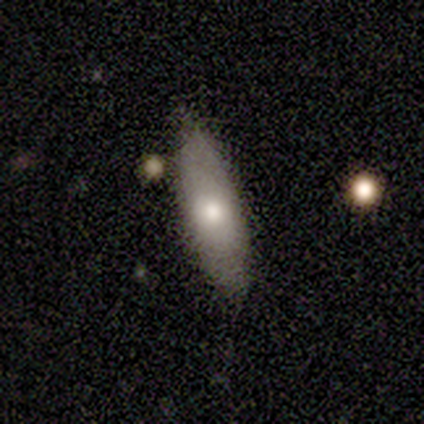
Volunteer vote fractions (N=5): smooth 100%, featured or disk 0%, star or artifact 0%. Down the decision tree: how rounded — cigar-shaped (60%); merging — none (80%).